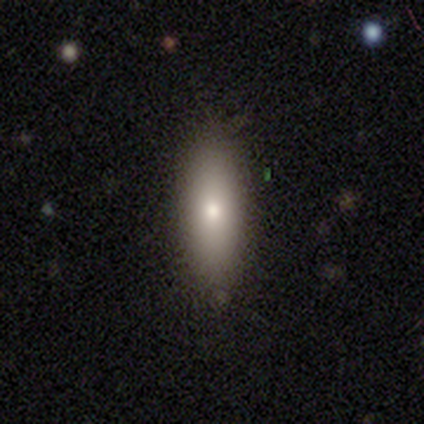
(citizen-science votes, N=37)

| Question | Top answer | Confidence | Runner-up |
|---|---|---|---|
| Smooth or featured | smooth | 73% | featured or disk (16%) |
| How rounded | in between | 63% | cigar-shaped (33%) |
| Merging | none | 88% | minor disturbance (9%) |